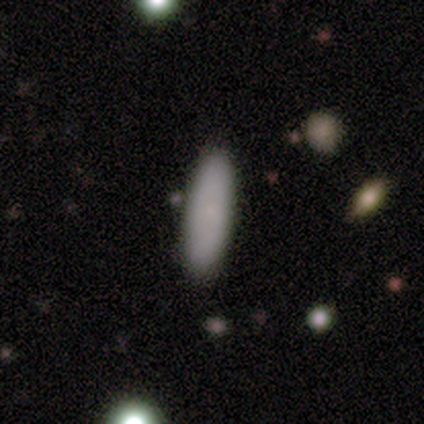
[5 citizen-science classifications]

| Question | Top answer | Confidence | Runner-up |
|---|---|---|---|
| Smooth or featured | smooth | 80% | featured or disk (20%) |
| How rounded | in between | 50% | tied: cigar-shaped (50%) |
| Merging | none | 80% | minor disturbance (20%) |